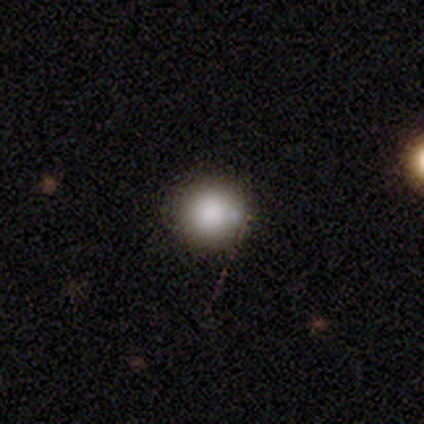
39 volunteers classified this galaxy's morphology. Smooth or featured? 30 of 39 (77%) said smooth. How rounded? 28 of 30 (93%) said round. Merging? 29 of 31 (94%) said none.